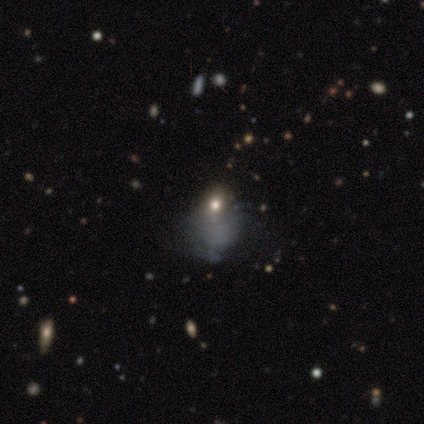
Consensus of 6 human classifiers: This appears to be a smooth galaxy with no disk features (50%) that is in between round and cigar-shaped (100%). Merging: minor disturbance (50%).